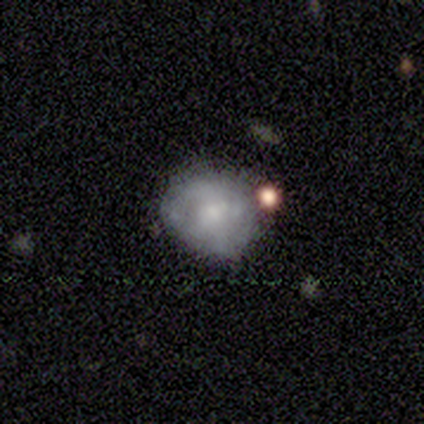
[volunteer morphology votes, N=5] smooth 80%, star or artifact 20%, featured or disk 0%. Down the decision tree: how rounded — round (75%); merging — none (50%).